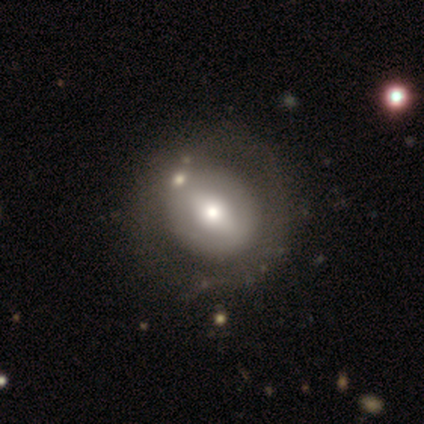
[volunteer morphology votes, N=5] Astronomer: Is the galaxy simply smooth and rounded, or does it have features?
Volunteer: featured or disk — 60% (runner-up: smooth, 40%).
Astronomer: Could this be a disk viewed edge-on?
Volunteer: no — 100%.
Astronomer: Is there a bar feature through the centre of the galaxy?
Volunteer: no — 100%.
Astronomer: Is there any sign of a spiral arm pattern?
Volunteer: no — 100%.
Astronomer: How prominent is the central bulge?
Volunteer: moderate — 67%.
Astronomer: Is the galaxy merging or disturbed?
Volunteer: none — 80%.